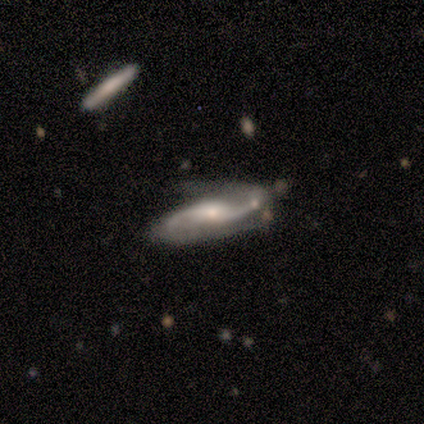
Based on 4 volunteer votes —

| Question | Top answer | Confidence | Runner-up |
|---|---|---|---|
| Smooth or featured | featured or disk | 75% | smooth (25%) |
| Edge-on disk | no | 100% | — |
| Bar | no | 67% | weak (33%) |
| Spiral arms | yes | 100% | — |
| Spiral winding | loose | 67% | tight (33%) |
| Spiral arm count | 2 | 100% | — |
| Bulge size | small | 67% | large (33%) |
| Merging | none | 50% | major disturbance (25%) |